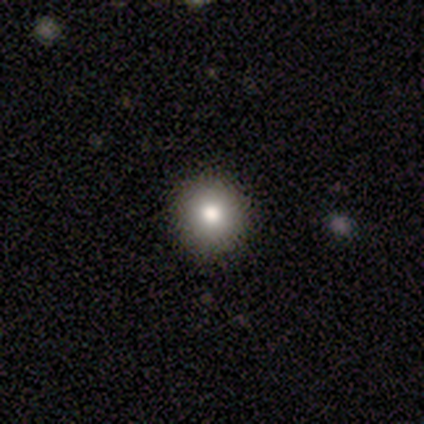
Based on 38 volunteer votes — Q: Smooth or featured?
A: smooth (87%); runner-up: star or artifact (13%)
Q: How rounded?
A: round (100%)
Q: Merging?
A: none (94%); runner-up: minor disturbance (6%)